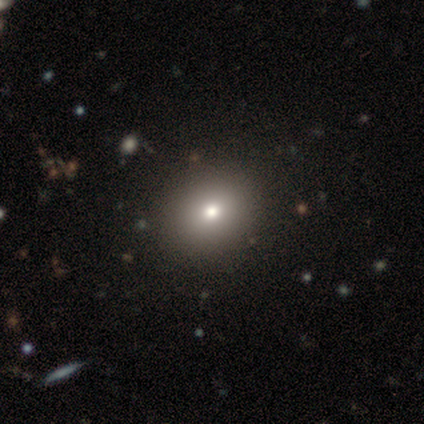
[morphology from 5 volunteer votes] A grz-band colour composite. It shows a smooth galaxy with no disk features (100%) that is round (80%). Merging: none (100%).